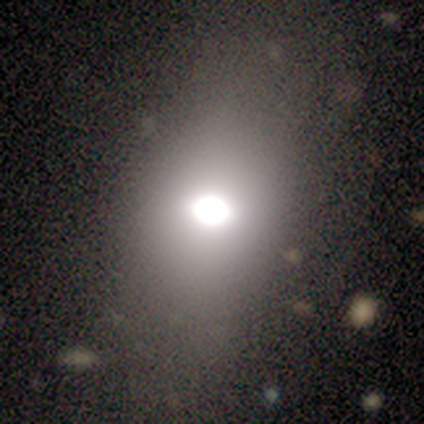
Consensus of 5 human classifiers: This appears to be a smooth galaxy with no disk features (80%) that is in between round and cigar-shaped (100%). Merging: none (100%).